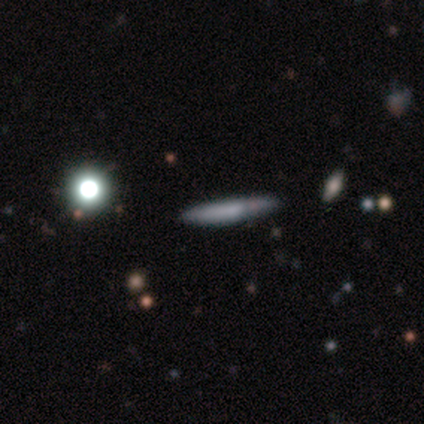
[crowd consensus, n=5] A smooth galaxy with no disk features (60%) that is cigar-shaped (100%).

Vote fractions:
- Smooth or featured? smooth: 60% / featured or disk: 40% / star or artifact: 0%
- How rounded? cigar-shaped: 100% / round: 0% / in between: 0%
- Merging? none: 100% / minor disturbance: 0% / major disturbance: 0% / merger: 0%